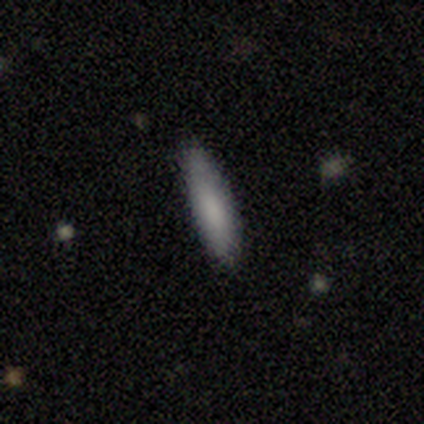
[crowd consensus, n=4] A smooth galaxy with no disk features (100%) that is cigar-shaped (100%). Merging: none (75%).